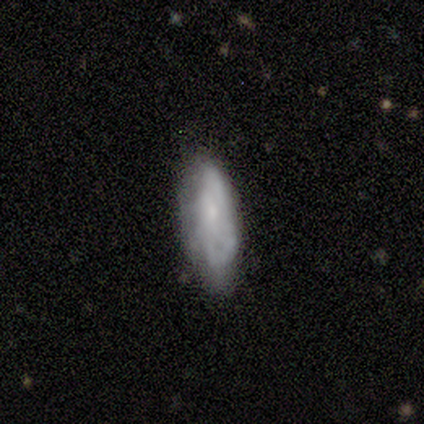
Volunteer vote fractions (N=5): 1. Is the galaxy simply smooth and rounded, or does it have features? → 100% smooth, 0% featured or disk, 0% star or artifact.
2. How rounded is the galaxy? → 100% in between, 0% round, 0% cigar-shaped.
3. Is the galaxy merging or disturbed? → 80% none, 20% minor disturbance, 0% major disturbance, 0% merger.